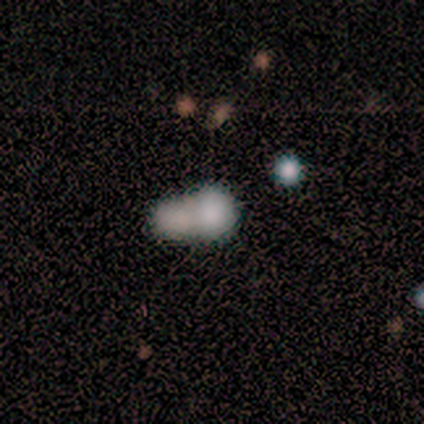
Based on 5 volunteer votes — Overall: smooth (60%; featured or disk 40%). How rounded: in between (67%; round 33%). Merging: merger (80%).